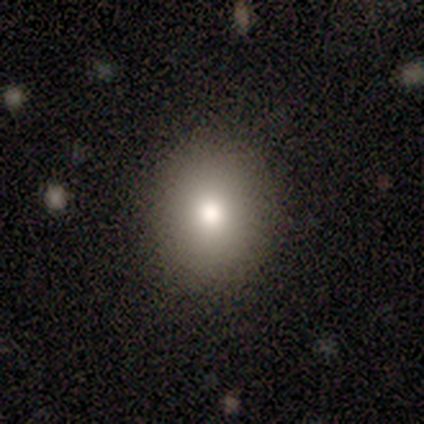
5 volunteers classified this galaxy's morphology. A smooth galaxy with no disk features (100%) that is in between round and cigar-shaped (60%). Merging: none (100%).